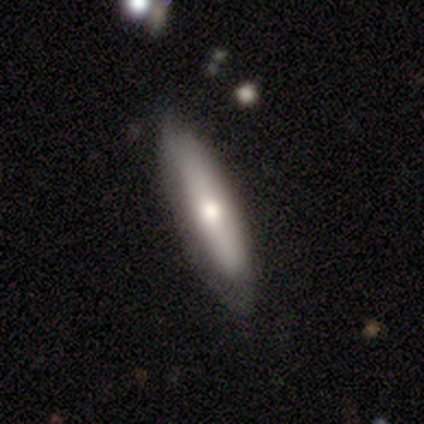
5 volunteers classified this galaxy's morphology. smooth 80%, featured or disk 20%, star or artifact 0%. Down the decision tree: how rounded — cigar-shaped (75%); merging — none (60%).